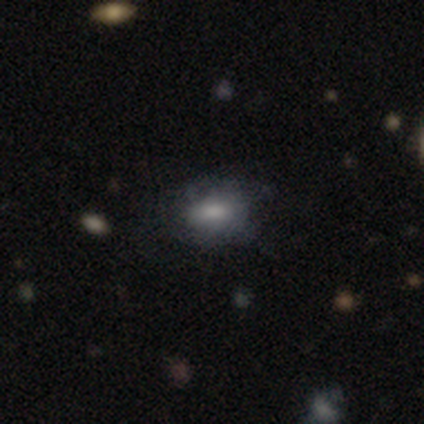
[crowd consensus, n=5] Smooth or featured?
  - smooth: 80% *
  - star or artifact: 20%
  - featured or disk: 0%
How rounded?
  - in between: 100% *
  - round: 0%
  - cigar-shaped: 0%
Merging?
  - minor disturbance: 75% *
  - none: 25%
  - major disturbance: 0%
  - merger: 0%